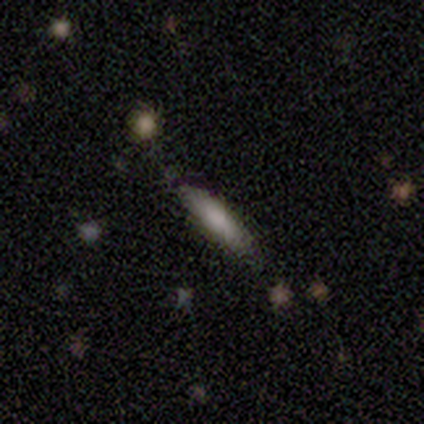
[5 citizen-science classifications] Overall: smooth (80%). How rounded: cigar-shaped (75%). Merging: none (80%).